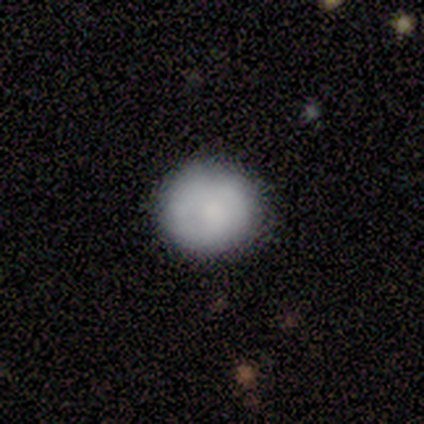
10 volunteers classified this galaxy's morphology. type=smooth (90%); roundness=round (100%); merging=none (78%).